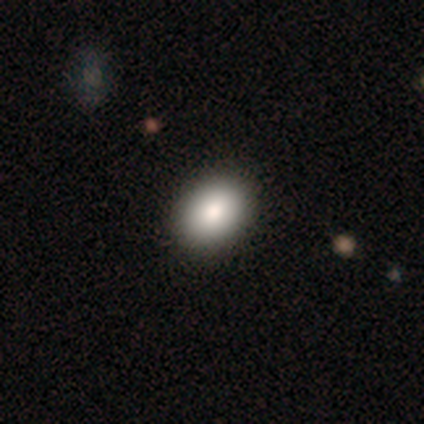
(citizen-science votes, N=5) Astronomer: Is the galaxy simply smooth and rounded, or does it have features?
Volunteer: smooth — 80%.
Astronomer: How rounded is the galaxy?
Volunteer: in between — 75%.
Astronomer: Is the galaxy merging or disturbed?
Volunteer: none — 100%.